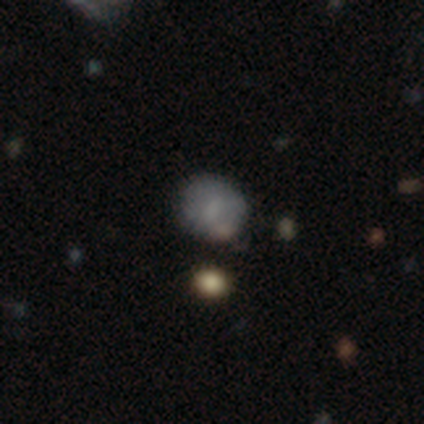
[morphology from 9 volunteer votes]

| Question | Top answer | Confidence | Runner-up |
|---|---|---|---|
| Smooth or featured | smooth | 89% | featured or disk (11%) |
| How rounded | round | 88% | in between (12%) |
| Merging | none | 56% | minor disturbance (33%) |